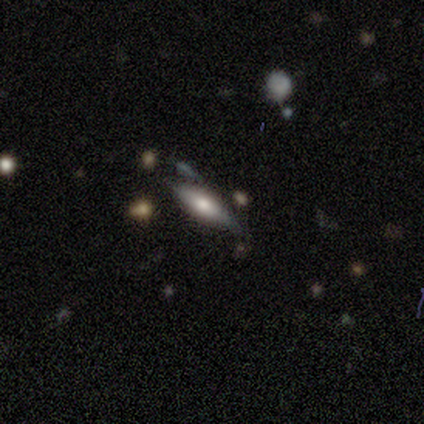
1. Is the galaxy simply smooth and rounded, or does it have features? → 75% smooth, 25% featured or disk, 0% star or artifact.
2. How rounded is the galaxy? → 67% in between, 33% cigar-shaped, 0% round.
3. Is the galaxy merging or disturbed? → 75% none, 25% minor disturbance, 0% major disturbance, 0% merger.